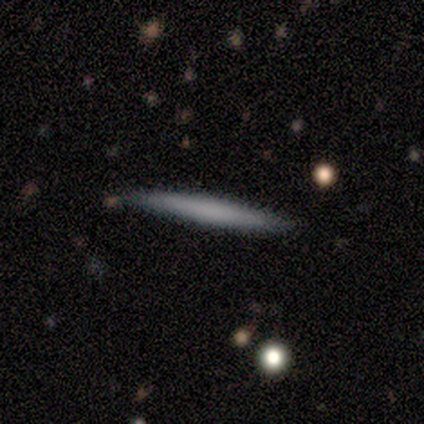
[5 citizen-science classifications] Overall: featured or disk (100%). Edge-on disk: yes (100%). Edge-on bulge: none (60%; boxy 40%). Merging: none (60%; minor disturbance 40%).